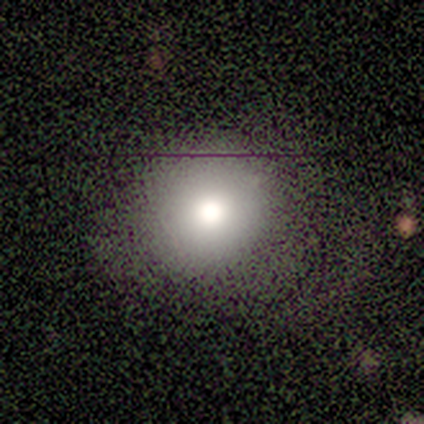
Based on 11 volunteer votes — smooth_or_featured: smooth (p=0.73) [alt: featured or disk p=0.27]
how_rounded: round (p=1.00)
merging: none (p=0.82) [alt: minor disturbance p=0.18]